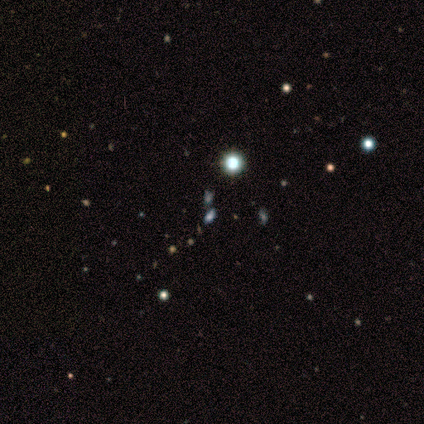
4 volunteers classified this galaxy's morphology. This is likely a star or artifact rather than a galaxy (75%).